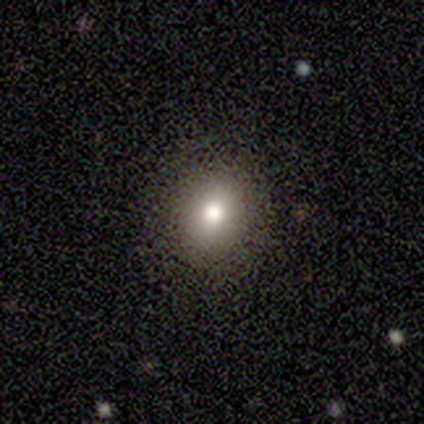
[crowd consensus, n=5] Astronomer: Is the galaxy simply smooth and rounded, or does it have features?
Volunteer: smooth — 80%.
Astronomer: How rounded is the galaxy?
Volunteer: round — 75%.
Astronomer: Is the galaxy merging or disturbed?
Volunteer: none — 100%.